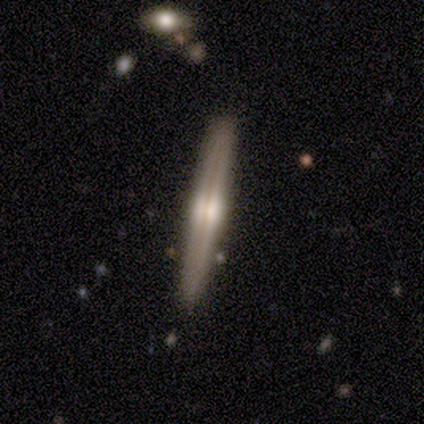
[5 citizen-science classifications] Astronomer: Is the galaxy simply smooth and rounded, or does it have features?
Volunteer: featured or disk — 80%.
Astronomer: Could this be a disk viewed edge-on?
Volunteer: yes — 100%.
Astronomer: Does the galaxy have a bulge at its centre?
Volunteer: boxy — 50%, tied with rounded at 50%.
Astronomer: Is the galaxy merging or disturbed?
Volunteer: none — 80%.